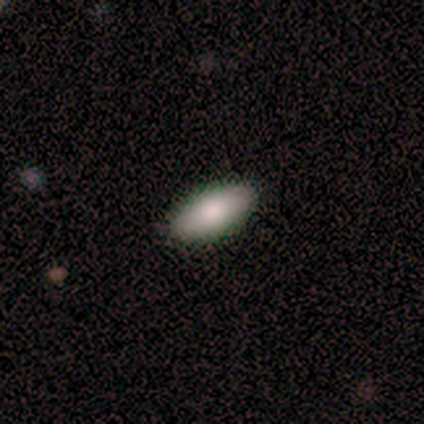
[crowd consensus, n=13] smooth 85%, featured or disk 8%, star or artifact 8%. Down the decision tree: how rounded — in between (82%); merging — none (92%).